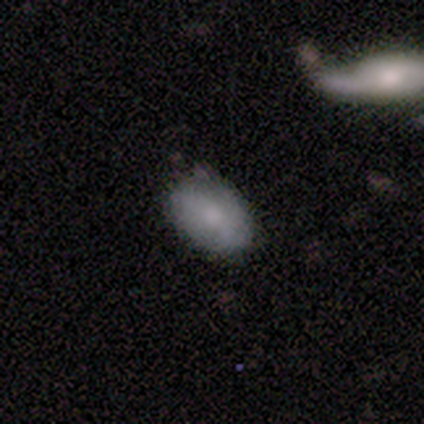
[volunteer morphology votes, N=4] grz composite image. It shows a smooth galaxy with no disk features (100%) that is in between round and cigar-shaped (100%). Merging: none (100%).